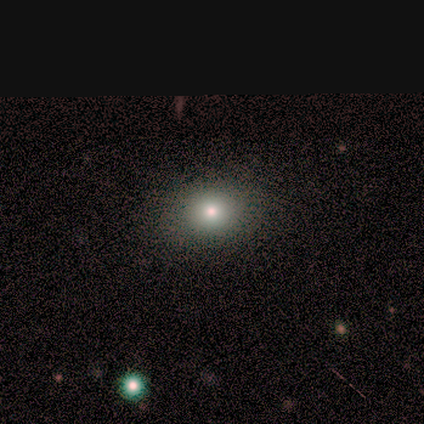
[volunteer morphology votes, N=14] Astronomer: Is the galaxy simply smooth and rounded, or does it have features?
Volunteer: smooth — 71%.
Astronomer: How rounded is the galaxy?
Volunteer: round — 80%.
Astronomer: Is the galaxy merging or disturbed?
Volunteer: none — 83%.